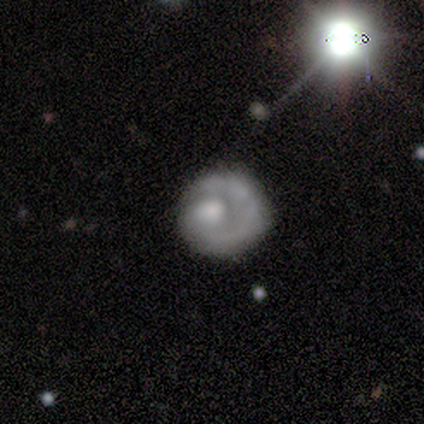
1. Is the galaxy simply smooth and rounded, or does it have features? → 73% featured or disk, 18% smooth, 9% star or artifact.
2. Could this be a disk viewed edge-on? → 100% no, 0% yes.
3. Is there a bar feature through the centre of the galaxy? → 88% no, 12% weak, 0% strong.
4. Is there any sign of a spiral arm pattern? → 62% no, 38% yes.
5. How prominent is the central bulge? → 62% moderate, 12% large, 12% small, 12% none, 0% dominant.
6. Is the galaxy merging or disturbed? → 40% major disturbance, 30% none, 30% minor disturbance, 0% merger.